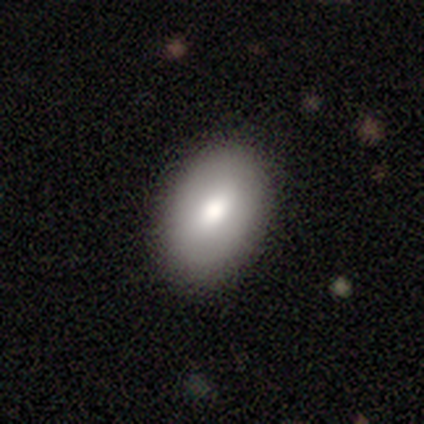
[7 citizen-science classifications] Smooth or featured? smooth (86%)
How rounded? in between (100%)
Merging? none (83%)